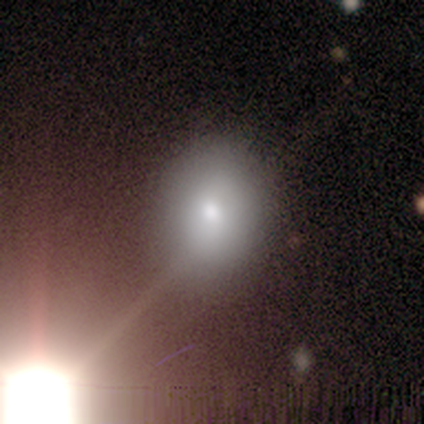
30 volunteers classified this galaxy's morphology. This appears to be a smooth galaxy with no disk features (63%) that is round (63%). Merging: none (86%).